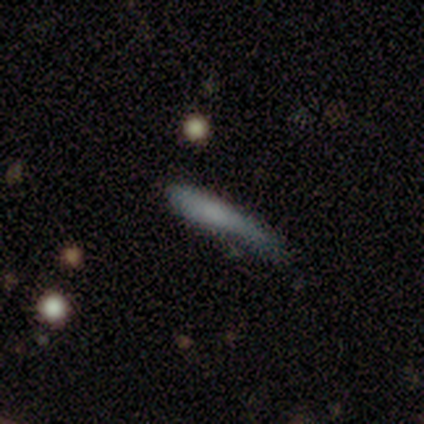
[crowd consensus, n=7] Morphology: type=smooth (86%); roundness=cigar-shaped (100%); merging=none (57%).